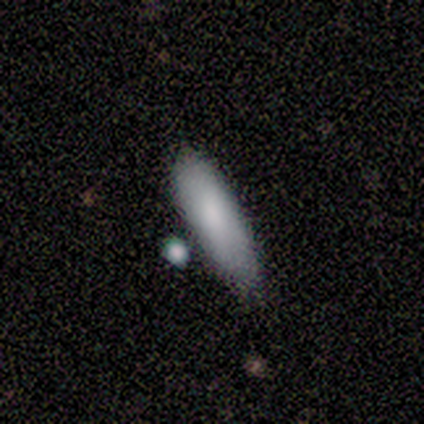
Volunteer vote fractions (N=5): A smooth galaxy with no disk features (100%) that is cigar-shaped (60%).

Vote fractions:
- Smooth or featured? smooth: 100% / featured or disk: 0% / star or artifact: 0%
- How rounded? cigar-shaped: 60% / in between: 40% / round: 0%
- Merging? none: 80% / minor disturbance: 20% / major disturbance: 0% / merger: 0%